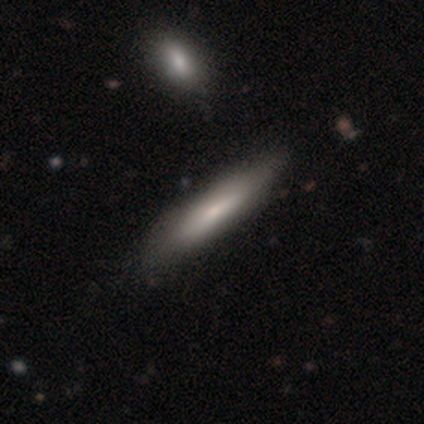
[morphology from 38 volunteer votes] Smooth or featured?
  - smooth: 66% *
  - featured or disk: 32%
  - star or artifact: 3%
How rounded?
  - cigar-shaped: 72% *
  - in between: 24%
  - round: 4%
Merging?
  - none: 62% *
  - minor disturbance: 16%
  - merger: 3%
  - major disturbance: 0%